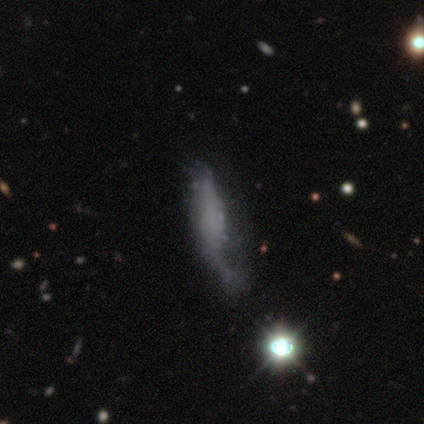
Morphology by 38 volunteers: Volunteers were most divided on "merging" (2-way tie): minor disturbance: 34%, major disturbance: 34%, none: 28%, merger: 3%. More confident: spiral arms — no (82%); bulge size — none (82%); edge-on disk — no (81%); bar — no (71%); smooth or featured — featured or disk (55%).